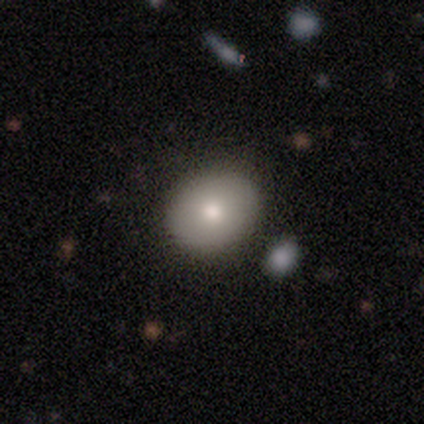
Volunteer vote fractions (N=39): Smooth or featured: smooth — 79% (featured or disk — 13%)
How rounded: round — 74% (in between — 26%)
Merging: none — 83% (minor disturbance — 14%)